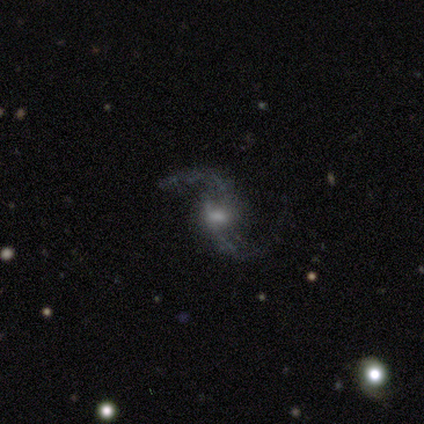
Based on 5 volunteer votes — Q: Smooth or featured?
A: featured or disk (100%)
Q: Edge-on disk?
A: no (100%)
Q: Bar?
A: weak (80%); runner-up: no (20%)
Q: Spiral arms?
A: yes (100%)
Q: Spiral winding?
A: loose (80%); runner-up: medium (20%)
Q: Spiral arm count?
A: 2 (100%)
Q: Bulge size?
A: small (60%); runner-up: moderate (40%)
Q: Merging?
A: none (80%); runner-up: minor disturbance (20%)